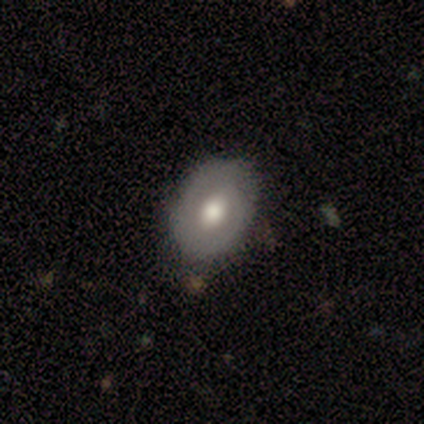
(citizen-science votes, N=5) smooth-or-featured: smooth: 60% | featured or disk: 40% | star or artifact: 0%
  how-rounded: in between: 67% | round: 33% | cigar-shaped: 0%
  merging: none: 80% | minor disturbance: 20% | major disturbance: 0% | merger: 0%